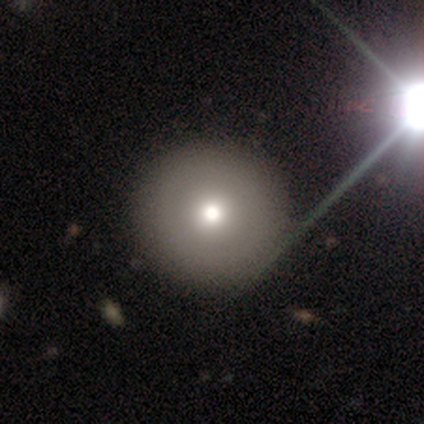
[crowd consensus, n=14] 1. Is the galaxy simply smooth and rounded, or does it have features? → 79% smooth, 14% featured or disk, 7% star or artifact.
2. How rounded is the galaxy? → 100% round, 0% in between, 0% cigar-shaped.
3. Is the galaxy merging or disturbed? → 85% none, 15% minor disturbance, 0% major disturbance, 0% merger.